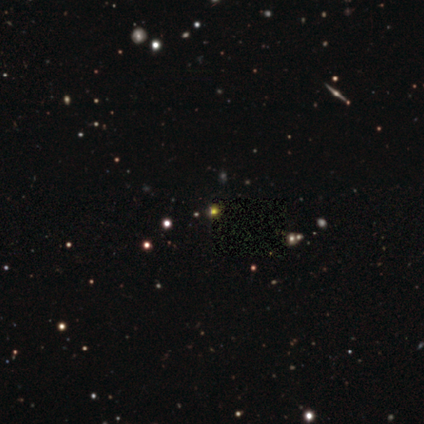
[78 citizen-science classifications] Q: Smooth or featured?
A: star or artifact (71%); runner-up: smooth (21%)